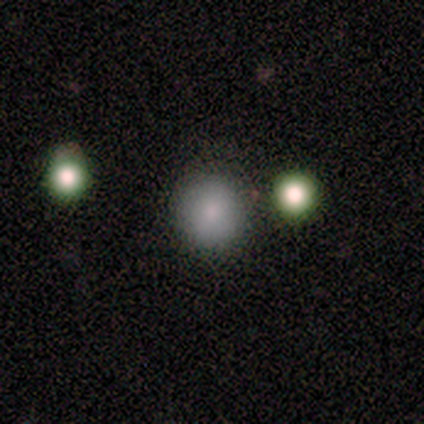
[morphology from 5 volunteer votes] type=smooth (60%); roundness=in between (67%); merging=none (100%).